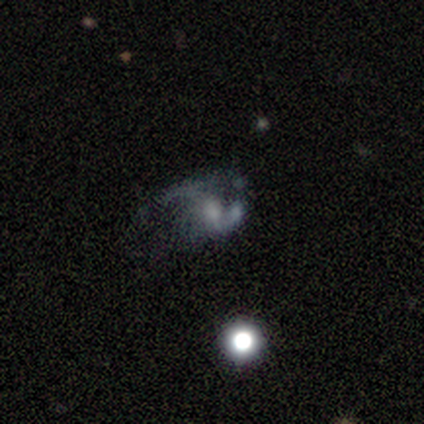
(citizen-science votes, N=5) Smooth or featured: smooth — 40% (tied with featured or disk — 40%)
How rounded: round — 100%
Merging: none — 50% (minor disturbance — 25%)